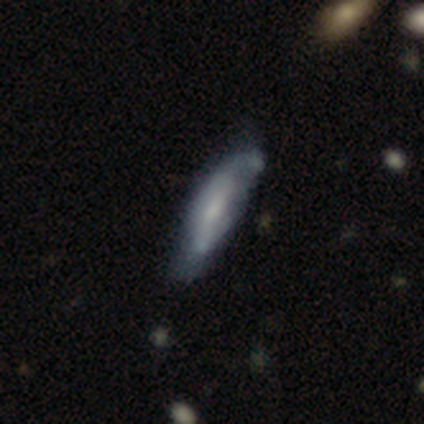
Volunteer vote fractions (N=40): Overall: smooth (48%; featured or disk 45%). How rounded: in between (58%; cigar-shaped 42%). Merging: none (49%; minor disturbance 30%).